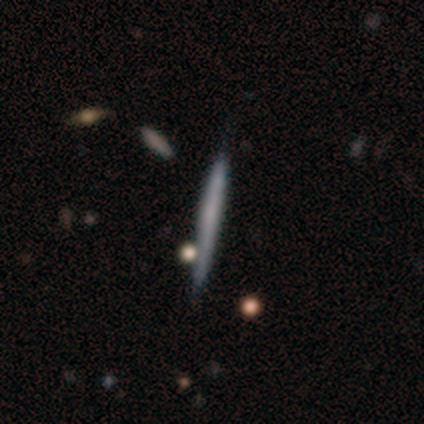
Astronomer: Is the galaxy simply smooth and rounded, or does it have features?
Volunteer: featured or disk — 100%.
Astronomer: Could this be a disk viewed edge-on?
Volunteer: yes — 100%.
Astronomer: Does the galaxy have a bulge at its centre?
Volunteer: none — 100%.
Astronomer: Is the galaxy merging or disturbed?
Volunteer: none — 60% (runner-up: minor disturbance, 40%).